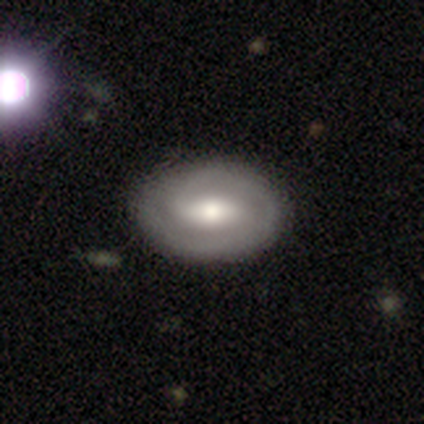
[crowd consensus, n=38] This is clearly a featured or disk galaxy (82%). It is clearly not viewed edge-on (100%). Bar: possibly weak (48%). Spiral arm pattern: clearly yes (84%). Spiral arm count: likely 2 (69%). Spiral winding: possibly tight (54%). Central bulge: likely moderate (71%). Merging: likely none (66%).